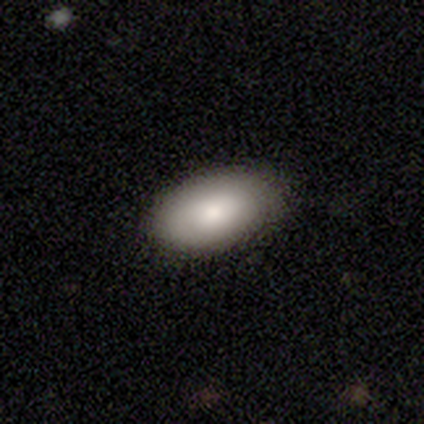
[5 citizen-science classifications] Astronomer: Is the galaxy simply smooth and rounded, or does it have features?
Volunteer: smooth — 100%.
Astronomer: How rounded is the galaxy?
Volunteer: in between — 100%.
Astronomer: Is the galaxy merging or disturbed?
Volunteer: none — 100%.